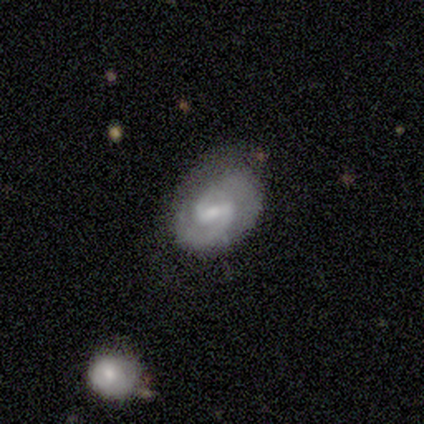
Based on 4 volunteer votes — A featured or disk galaxy (75%) with a weak bar (67%), 2 (100%) medium (67%) spiral arms (100%) and a small central bulge (67%). Merging: none (33%, tied with minor disturbance and major disturbance).